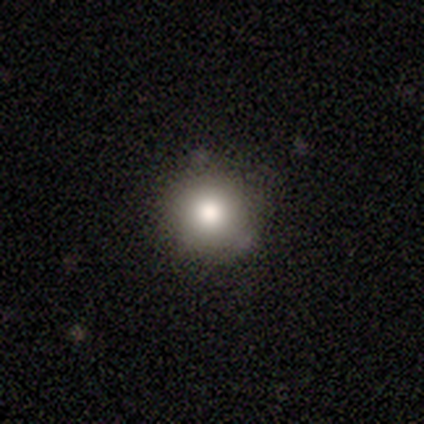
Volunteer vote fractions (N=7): Smooth or featured? smooth (71%)
How rounded? round (100%)
Merging? none (83%)